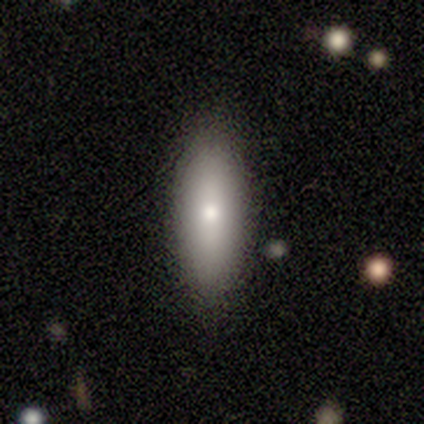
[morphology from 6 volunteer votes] smooth-or-featured: smooth: 100% | featured or disk: 0% | star or artifact: 0%
  how-rounded: cigar-shaped: 67% | in between: 33% | round: 0%
  merging: none: 83% | minor disturbance: 17% | major disturbance: 0% | merger: 0%